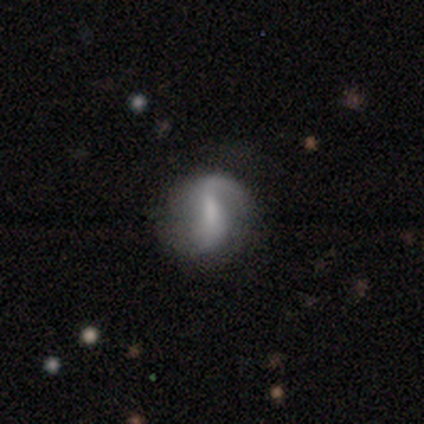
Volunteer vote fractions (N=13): A featured or disk galaxy (77%) with a weak bar (78%), 2 (100%) medium (50%, tied with loose) spiral arms (89%) and a moderate central bulge (33%, tied with small and none).

Vote fractions:
- Smooth or featured? featured or disk: 77% / star or artifact: 15% / smooth: 8%
- Edge-on disk? no: 90% / yes: 10%
- Bar? weak: 78% / strong: 11% / no: 11%
- Spiral arms? yes: 89% / no: 11%
- Spiral winding? medium: 50% (tied) / loose: 50% (tied) / tight: 0%
- Spiral arm count? 2: 100% / 1: 0% / 3: 0% / 4: 0% / more than 4: 0% / can't tell: 0%
- Bulge size? moderate: 33% (tied) / small: 33% (tied) / none: 33% (tied) / dominant: 0% / large: 0%
- Merging? none: 64% / minor disturbance: 36% / major disturbance: 0% / merger: 0%